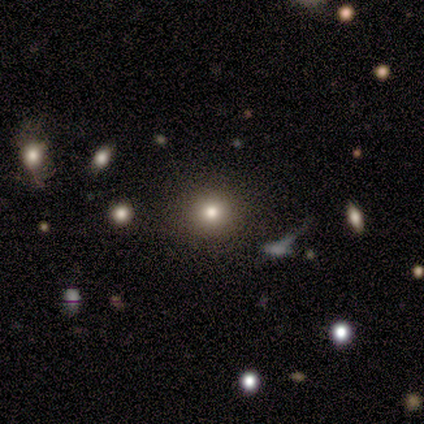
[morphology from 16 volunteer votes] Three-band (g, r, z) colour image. It shows a smooth galaxy with no disk features (62%) that is round (80%). Merging: none (83%).